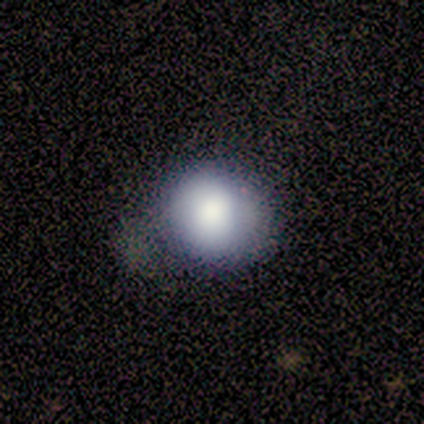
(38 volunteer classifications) Smooth or featured? 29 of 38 (76%) said smooth. How rounded? 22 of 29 (76%) said round. Merging? 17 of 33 (52%) said none.